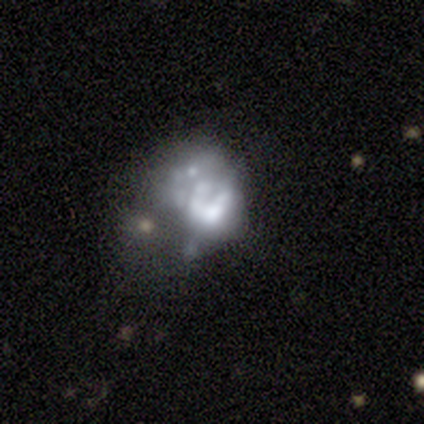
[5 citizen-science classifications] A featured or disk galaxy (100%) with no bar (100%), no spiral arms (80%) and a dominant central bulge (20%, tied with large, moderate, small and none).

Vote fractions:
- Smooth or featured? featured or disk: 100% / smooth: 0% / star or artifact: 0%
- Edge-on disk? no: 100% / yes: 0%
- Bar? no: 100% / strong: 0% / weak: 0%
- Spiral arms? no: 80% / yes: 20%
- Bulge size? dominant: 20% (tied) / large: 20% (tied) / moderate: 20% (tied) / small: 20% (tied) / none: 20% (tied)
- Merging? major disturbance: 60% / none: 40% / minor disturbance: 0% / merger: 0%